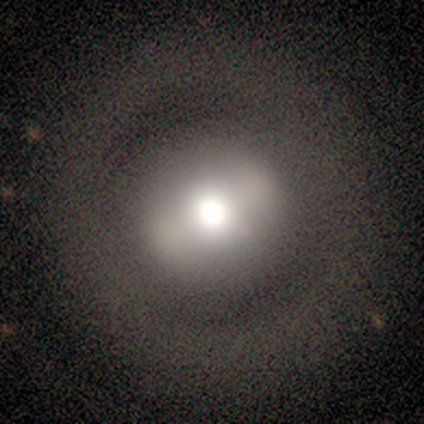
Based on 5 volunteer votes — A featured or disk galaxy (60%) with a weak bar (67%), no spiral arms (100%) and a large central bulge (100%). Merging: none (75%).